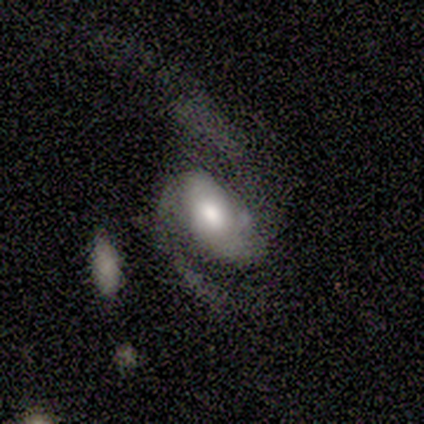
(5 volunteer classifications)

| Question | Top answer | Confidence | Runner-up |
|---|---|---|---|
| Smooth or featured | featured or disk | 80% | smooth (20%) |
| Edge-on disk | no | 100% | — |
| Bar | no | 75% | weak (25%) |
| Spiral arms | yes | 100% | — |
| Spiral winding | medium | 75% | loose (25%) |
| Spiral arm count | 2 | 100% | — |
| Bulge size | moderate | 75% | large (25%) |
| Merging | none | 40% | tied: major disturbance (40%) |